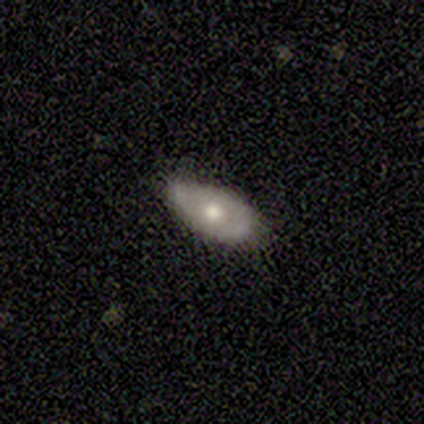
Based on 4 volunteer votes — featured or disk 75%, smooth 25%, star or artifact 0%. Down the decision tree: edge-on disk — no (67%); bar — no (100%); spiral arms — no (100%); bulge size — moderate (100%); merging — none (75%).